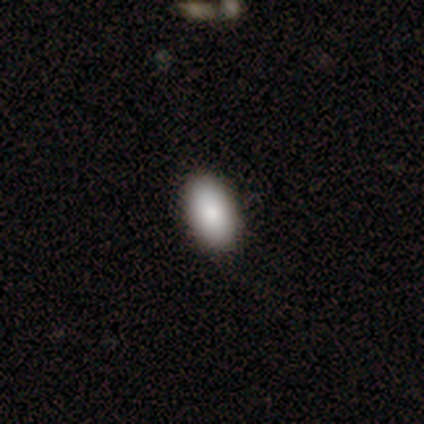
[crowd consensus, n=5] A smooth galaxy with no disk features (40%, tied with featured or disk) that is in between round and cigar-shaped (100%). Merging: none (100%).